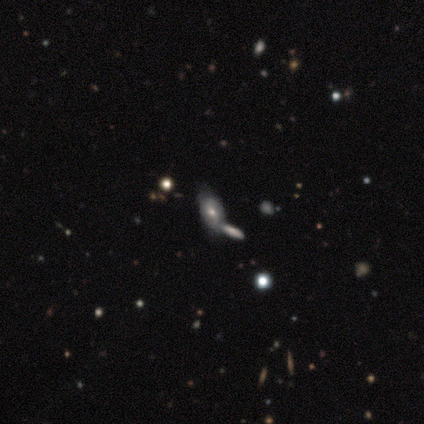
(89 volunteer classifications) Q: Smooth or featured?
A: featured or disk (46%); runner-up: smooth (35%)
Q: Edge-on disk?
A: no (88%); runner-up: yes (12%)
Q: Bar?
A: no (75%); runner-up: weak (25%)
Q: Spiral arms?
A: no (75%); runner-up: yes (25%)
Q: Bulge size?
A: moderate (61%); runner-up: small (39%)
Q: Merging?
A: none (40%); runner-up: merger (38%)